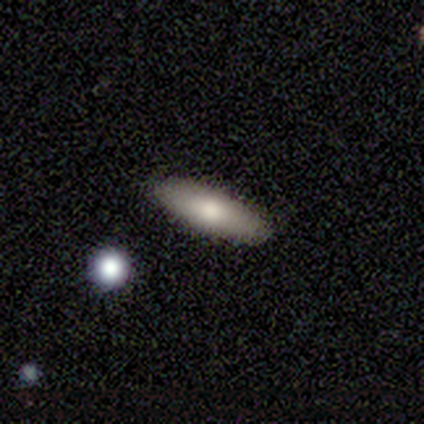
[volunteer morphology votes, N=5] smooth 60%, featured or disk 20%, star or artifact 20%. Down the decision tree: how rounded — cigar-shaped (67%); merging — none (100%).